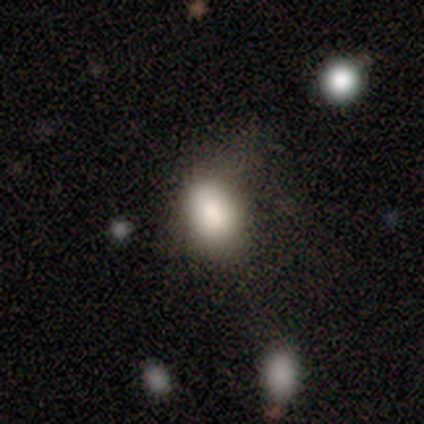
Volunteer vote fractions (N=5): A smooth galaxy with no disk features (100%) that is in between round and cigar-shaped (100%). Merging: none (60%).